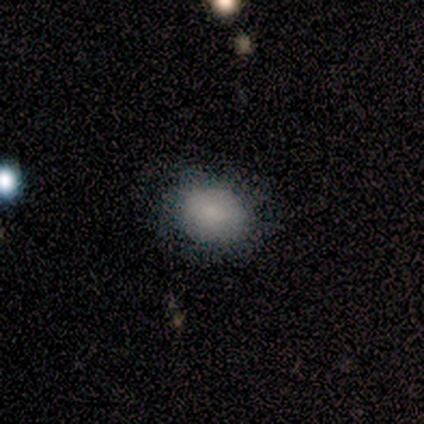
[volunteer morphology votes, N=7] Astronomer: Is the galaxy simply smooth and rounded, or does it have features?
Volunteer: smooth — 86%.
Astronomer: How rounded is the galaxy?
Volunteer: in between — 67%.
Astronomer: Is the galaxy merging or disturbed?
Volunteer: none — 71%.